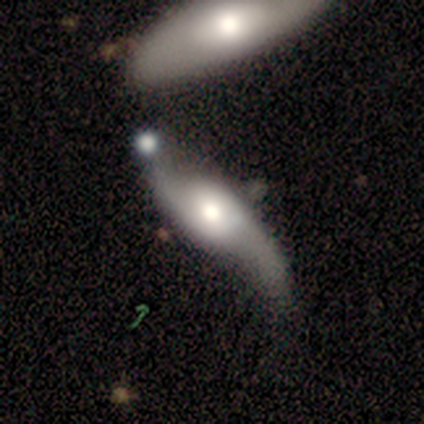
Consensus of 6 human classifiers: Smooth or featured: featured or disk — 50% (smooth — 33%)
Edge-on disk: no — 100%
Bar: no — 100%
Spiral arms: yes — 67% (no — 33%)
Spiral winding: loose — 100%
Spiral arm count: 2 — 100%
Bulge size: moderate — 100%
Merging: minor disturbance — 60% (merger — 40%)